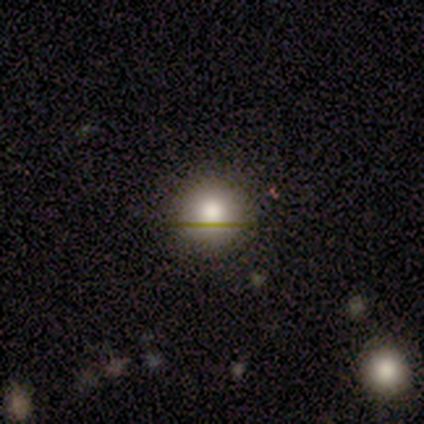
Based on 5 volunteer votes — Volunteers were most divided on "smooth or featured": smooth: 80%, featured or disk: 20%, star or artifact: 0%. More confident: how rounded — round (100%); merging — none (80%).